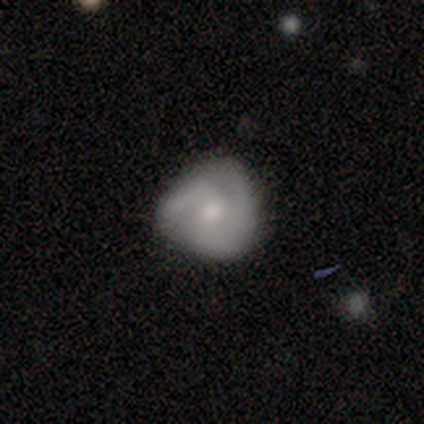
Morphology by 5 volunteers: This is clearly a featured or disk galaxy (80%). It is clearly not viewed edge-on (100%). Bar: possibly weak (50%, tied with no). Spiral arm pattern: clearly yes (100%). Spiral arm count: likely 3 (75%). Spiral winding: possibly tight (50%). Central bulge: clearly moderate (100%). Merging: clearly none (80%).